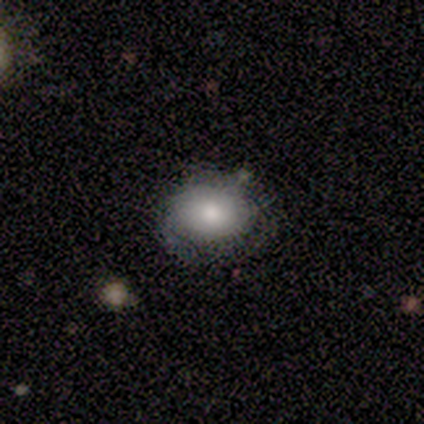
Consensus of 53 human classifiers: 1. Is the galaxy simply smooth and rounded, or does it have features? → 70% smooth, 21% featured or disk, 9% star or artifact.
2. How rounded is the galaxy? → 51% in between, 49% round, 0% cigar-shaped.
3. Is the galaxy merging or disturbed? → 54% none, 23% minor disturbance, 23% major disturbance, 0% merger.